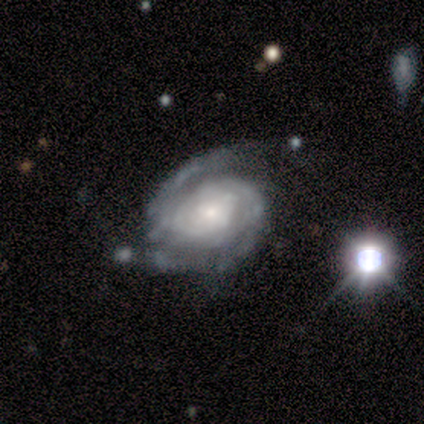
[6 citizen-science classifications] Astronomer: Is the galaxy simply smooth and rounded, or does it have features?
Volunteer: featured or disk — 100%.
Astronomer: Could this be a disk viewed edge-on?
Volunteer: no — 100%.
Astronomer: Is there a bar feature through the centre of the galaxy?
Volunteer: no — 100%.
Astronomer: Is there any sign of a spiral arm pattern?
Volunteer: yes — 100%.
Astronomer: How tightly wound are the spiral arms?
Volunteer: tight — 50% (runner-up: medium, 33%).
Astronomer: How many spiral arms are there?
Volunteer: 2 — 67%.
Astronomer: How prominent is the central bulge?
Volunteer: moderate — 50%, tied with small at 50%.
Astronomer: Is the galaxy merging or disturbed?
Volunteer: none — 50% (runner-up: minor disturbance, 33%).